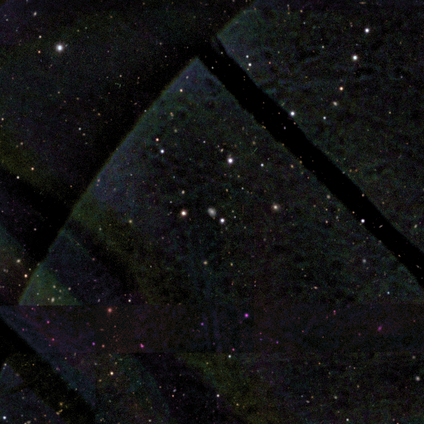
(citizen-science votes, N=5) A star or artifact, not a galaxy (60%).